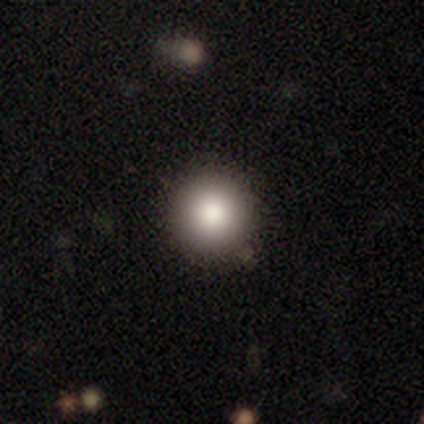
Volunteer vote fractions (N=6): This appears to be a smooth galaxy with no disk features (67%) that is round (100%). Merging: none (100%).